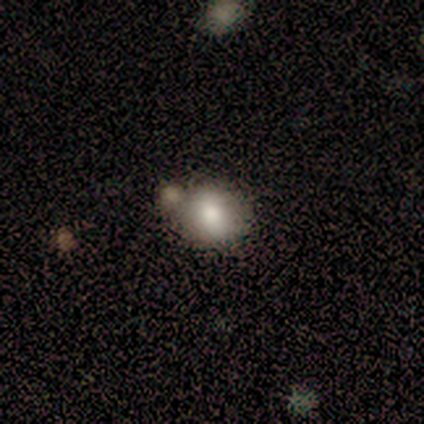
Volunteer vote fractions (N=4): Overall: smooth (100%). How rounded: round (100%). Merging: none (100%).